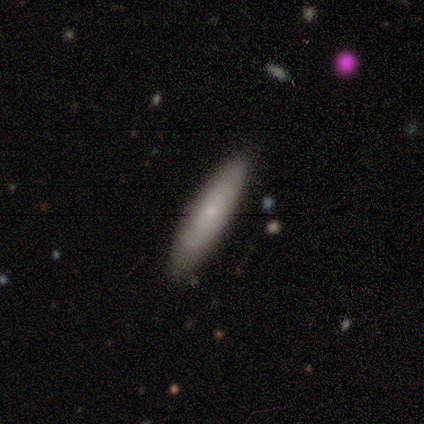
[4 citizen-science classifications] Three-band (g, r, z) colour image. It shows a smooth galaxy with no disk features (50%, tied with featured or disk) that is in between round and cigar-shaped (50%, tied with cigar-shaped). Merging: none (100%).